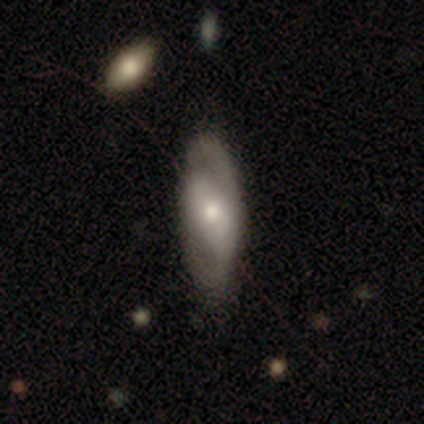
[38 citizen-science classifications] A featured or disk galaxy (58%) with no bar (67%), no spiral arms (56%) and a moderate central bulge (72%). Merging: none (65%).